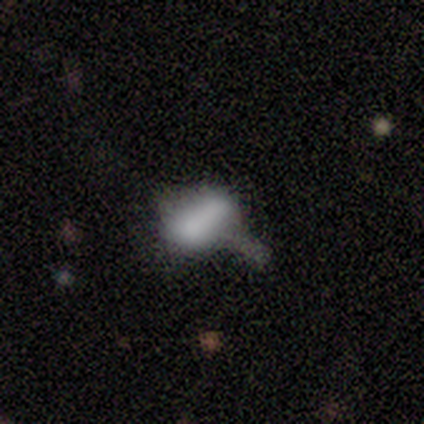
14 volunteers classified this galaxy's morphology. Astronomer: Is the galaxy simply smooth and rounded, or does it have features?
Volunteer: smooth — 71%.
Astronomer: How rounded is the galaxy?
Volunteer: in between — 70%.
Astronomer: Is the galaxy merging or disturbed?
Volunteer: merger — 38% (runner-up: none, 31%).